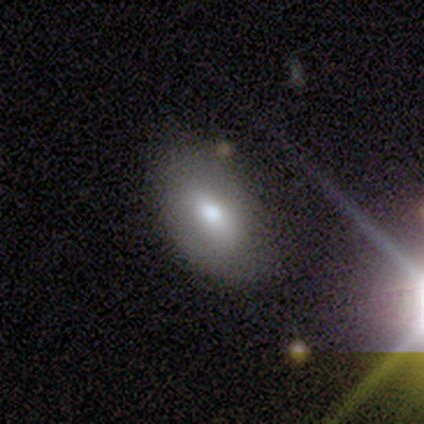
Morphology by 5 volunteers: Overall: smooth (80%). How rounded: in between (75%). Merging: none (100%).